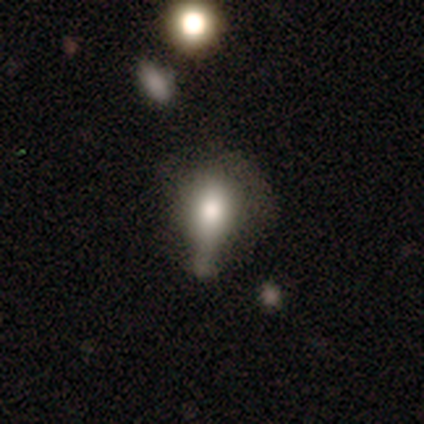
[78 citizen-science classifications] A smooth galaxy with no disk features (63%) that is round (49%).

Vote fractions:
- Smooth or featured? smooth: 63% / featured or disk: 26% / star or artifact: 12%
- How rounded? round: 49% / in between: 45% / cigar-shaped: 6%
- Merging? minor disturbance: 25% / merger: 20% / major disturbance: 13% / none: 9%